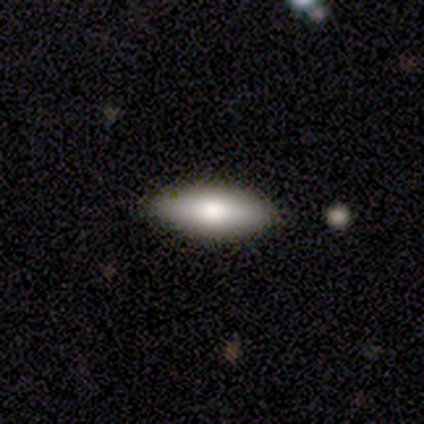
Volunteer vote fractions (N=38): Smooth or featured? 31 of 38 (82%) said smooth. How rounded? 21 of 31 (68%) said in between. Merging? 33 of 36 (92%) said none.